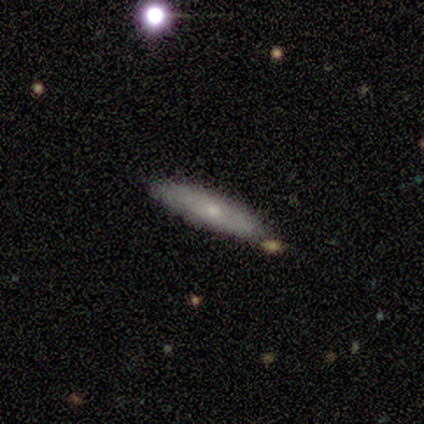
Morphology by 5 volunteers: Overall: smooth (40%, tied with featured or disk). How rounded: in between (50%, tied with cigar-shaped). Merging: none (75%).